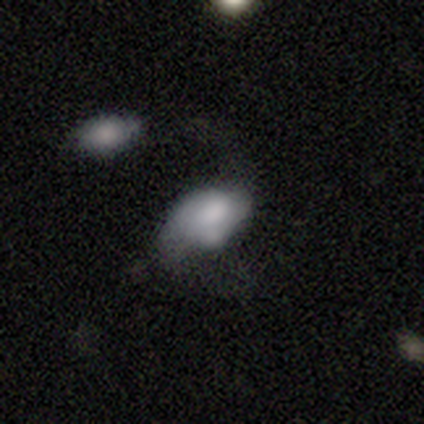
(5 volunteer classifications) A smooth galaxy with no disk features (80%) that is in between round and cigar-shaped (100%).

Vote fractions:
- Smooth or featured? smooth: 80% / star or artifact: 20% / featured or disk: 0%
- How rounded? in between: 100% / round: 0% / cigar-shaped: 0%
- Merging? none: 75% / major disturbance: 25% / minor disturbance: 0% / merger: 0%